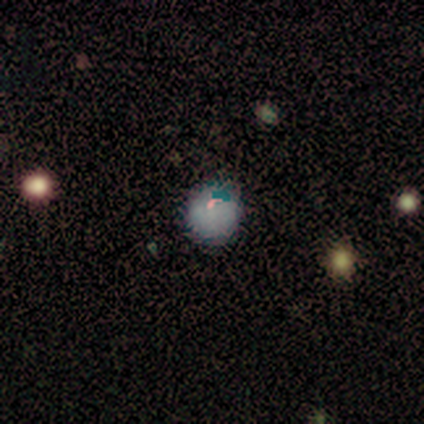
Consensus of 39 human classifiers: Morphology: type=smooth (59%); roundness=round (78%); merging=none (77%).